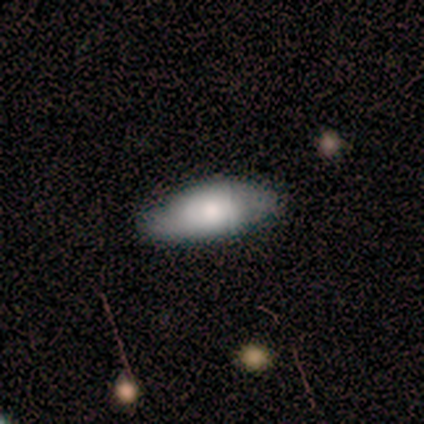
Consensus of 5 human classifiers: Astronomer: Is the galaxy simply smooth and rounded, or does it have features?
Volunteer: smooth — 80%.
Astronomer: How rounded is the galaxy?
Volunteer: in between — 100%.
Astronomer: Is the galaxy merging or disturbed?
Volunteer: none — 60% (runner-up: minor disturbance, 40%).